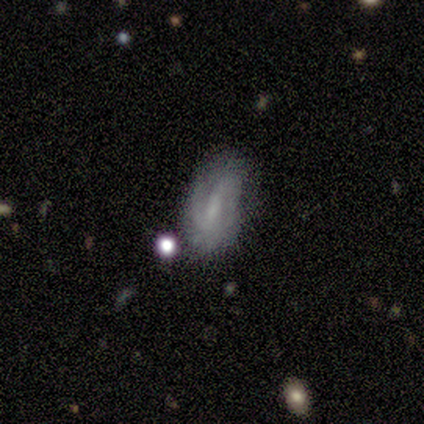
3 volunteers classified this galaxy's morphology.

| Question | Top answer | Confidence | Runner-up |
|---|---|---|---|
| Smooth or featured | smooth | 33% | tied: featured or disk (33%), star or artifact (33%) |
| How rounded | in between | 100% | — |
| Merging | none | 100% | — |